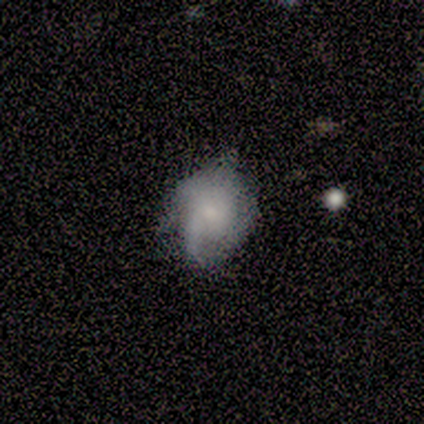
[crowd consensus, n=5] Morphology: type=smooth (40%, tied with featured or disk); roundness=in between (100%); merging=none (50%).